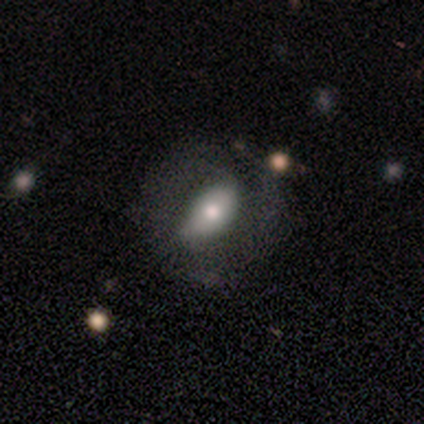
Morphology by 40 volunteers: A smooth galaxy with no disk features (52%) that is in between round and cigar-shaped (86%). Merging: none (60%).